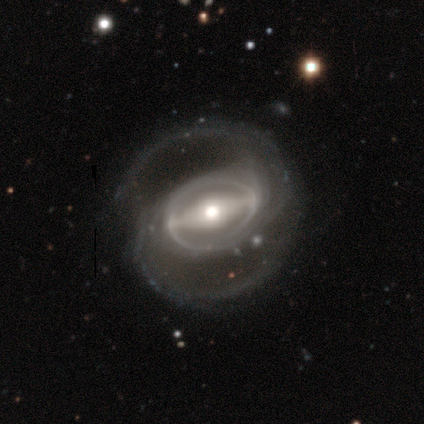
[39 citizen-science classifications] A featured or disk galaxy (90%) with a strong bar (85%), 2 (93%) medium (53%) spiral arms (91%) and a moderate central bulge (76%).

Vote fractions:
- Smooth or featured? featured or disk: 90% / smooth: 8% / star or artifact: 3%
- Edge-on disk? no: 94% / yes: 6%
- Bar? strong: 85% / weak: 12% / no: 3%
- Spiral arms? yes: 91% / no: 9%
- Spiral winding? medium: 53% / loose: 27% / tight: 20%
- Spiral arm count? 2: 93% / 3: 3% / can't tell: 3% / 1: 0% / 4: 0% / more than 4: 0%
- Bulge size? moderate: 76% / large: 15% / small: 9% / dominant: 0% / none: 0%
- Merging? none: 79% / major disturbance: 11% / minor disturbance: 5% / merger: 5%